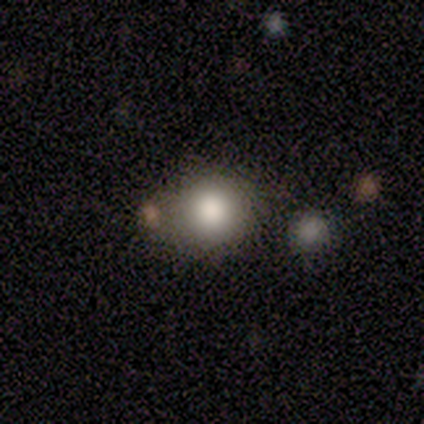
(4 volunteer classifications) smooth-or-featured: smooth: 75% | star or artifact: 25% | featured or disk: 0%
  how-rounded: round: 67% | in between: 33% | cigar-shaped: 0%
  merging: none: 100% | minor disturbance: 0% | major disturbance: 0% | merger: 0%